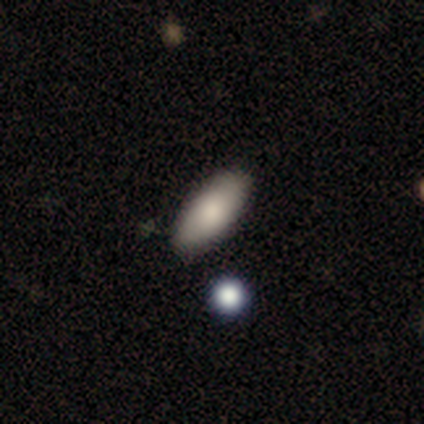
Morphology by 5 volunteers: Smooth or featured? 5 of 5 (100%) said smooth. How rounded? 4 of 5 (80%) said in between. Merging? 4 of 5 (80%) said none.